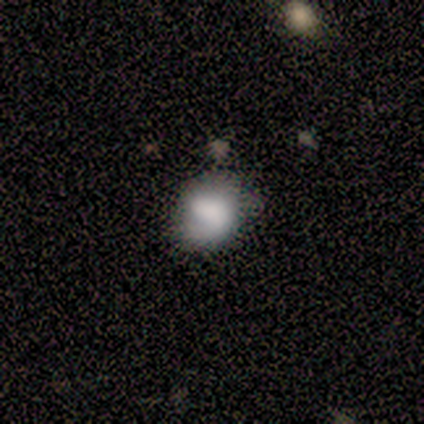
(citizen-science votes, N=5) Overall: featured or disk (60%; smooth 40%). Edge-on disk: no (100%). Bar: no (67%; strong 33%). Spiral arms: no (67%; yes 33%). Bulge size: large (33%, tied with small and none). Merging: none (80%).